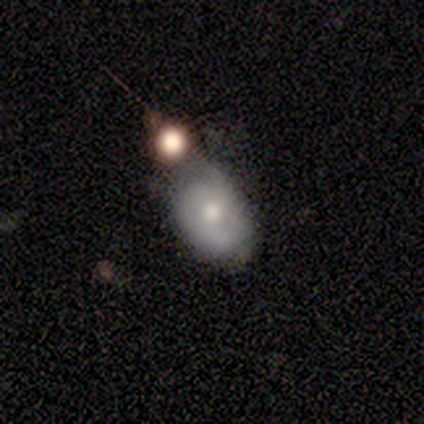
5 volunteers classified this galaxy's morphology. smooth-or-featured: smooth: 60% | featured or disk: 40% | star or artifact: 0%
  how-rounded: in between: 67% | round: 33% | cigar-shaped: 0%
  merging: merger: 40% | none: 20% | minor disturbance: 20% | major disturbance: 20%